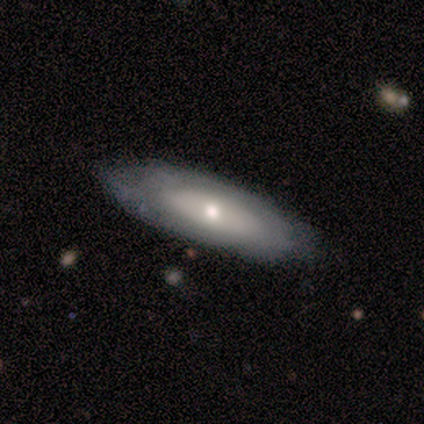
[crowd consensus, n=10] Smooth or featured? 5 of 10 (50%, tied with featured or disk) said smooth. How rounded? 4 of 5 (80%) said in between. Merging? 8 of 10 (80%) said none.